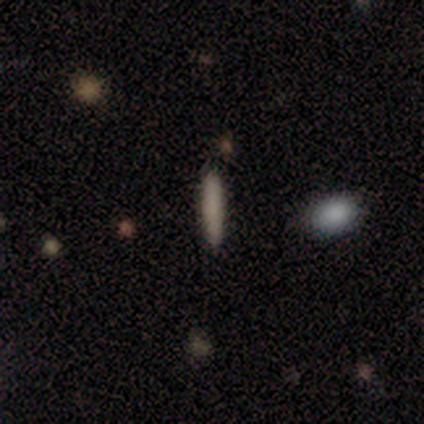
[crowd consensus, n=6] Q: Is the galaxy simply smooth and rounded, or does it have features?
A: smooth — 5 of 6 (83%).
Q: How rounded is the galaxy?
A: cigar-shaped — 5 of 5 (100%).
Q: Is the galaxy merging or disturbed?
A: none — 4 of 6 (67%).